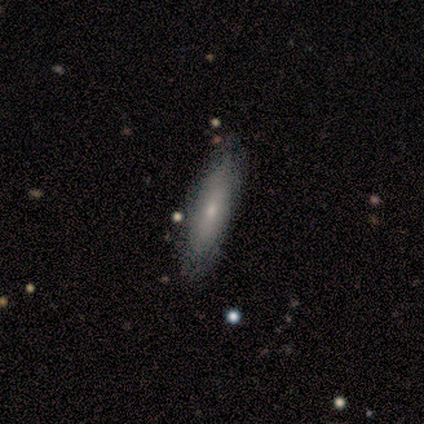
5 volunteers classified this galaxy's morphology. smooth_or_featured: smooth (p=0.80) [alt: featured or disk p=0.20]
how_rounded: cigar-shaped (p=1.00)
merging: none (p=1.00)